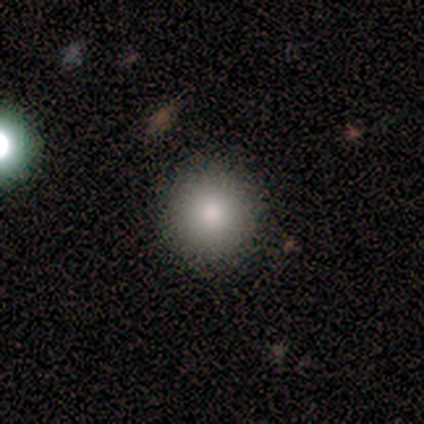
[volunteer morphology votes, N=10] smooth-or-featured: smooth: 80% | featured or disk: 10% | star or artifact: 10%
  how-rounded: round: 88% | in between: 12% | cigar-shaped: 0%
  merging: none: 78% | minor disturbance: 11% | major disturbance: 11% | merger: 0%